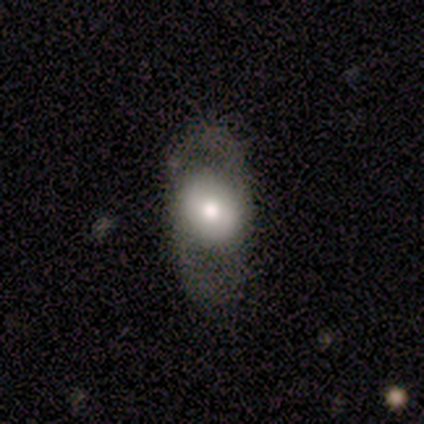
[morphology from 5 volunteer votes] A smooth galaxy with no disk features (60%) that is in between round and cigar-shaped (67%). Merging: none (50%).